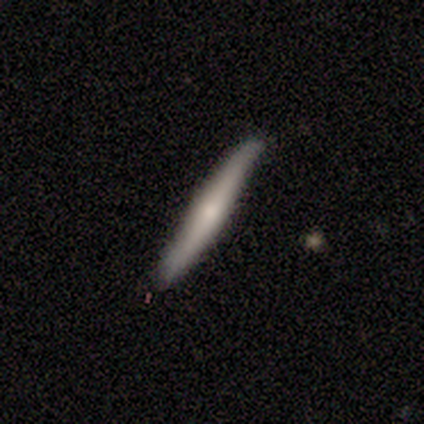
smooth_or_featured: smooth (p=0.50) [tied with: featured or disk p=0.50]
how_rounded: cigar-shaped (p=1.00)
merging: none (p=0.67) [alt: minor disturbance p=0.33]